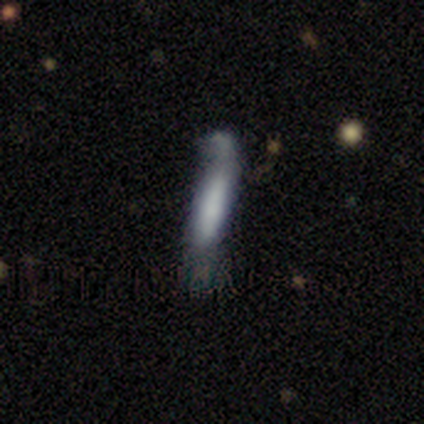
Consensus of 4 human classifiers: smooth_or_featured: smooth (p=0.75) [alt: featured or disk p=0.25]
how_rounded: cigar-shaped (p=1.00)
merging: minor disturbance (p=0.50) [tied with: major disturbance p=0.50]